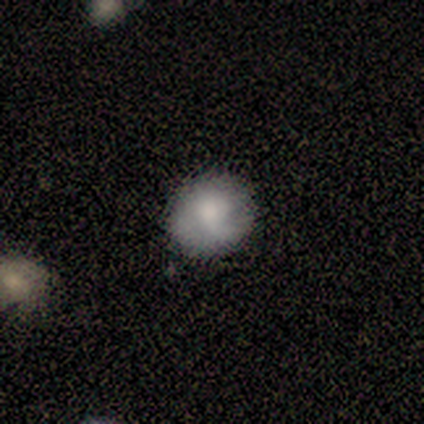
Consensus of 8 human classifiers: Smooth or featured: smooth — 62% (featured or disk — 38%)
How rounded: round — 100%
Merging: none — 88% (minor disturbance — 12%)